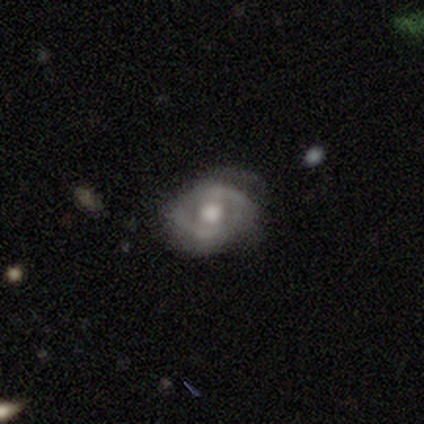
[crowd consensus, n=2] featured or disk 100%, smooth 0%, star or artifact 0%. Down the decision tree: edge-on disk — no (100%); bar — weak (50%, tied with no); spiral arms — yes (50%, tied with no); spiral arm count — 1 (100%); spiral winding — loose (100%); bulge size — large (50%, tied with moderate); merging — none (100%).